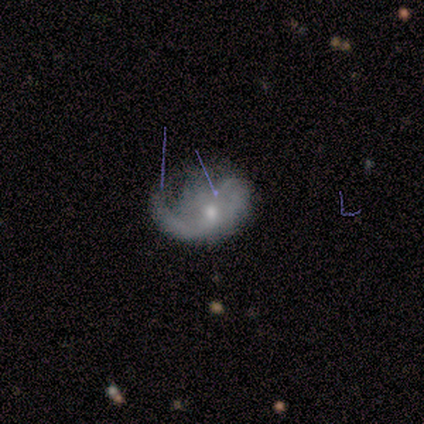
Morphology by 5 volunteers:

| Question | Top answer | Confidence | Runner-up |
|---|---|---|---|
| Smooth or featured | featured or disk | 60% | smooth (20%) |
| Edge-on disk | no | 100% | — |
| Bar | no | 67% | weak (33%) |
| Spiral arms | yes | 67% | no (33%) |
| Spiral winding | loose | 100% | — |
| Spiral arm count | can't tell | 100% | — |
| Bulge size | small | 67% | moderate (33%) |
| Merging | major disturbance | 50% | minor disturbance (25%) |